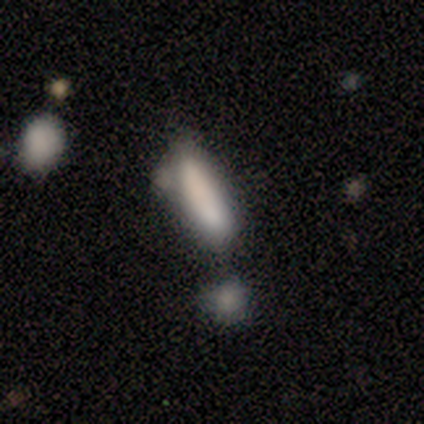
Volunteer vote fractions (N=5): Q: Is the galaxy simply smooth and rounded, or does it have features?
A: smooth — 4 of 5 (80%).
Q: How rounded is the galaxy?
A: in between — 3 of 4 (75%).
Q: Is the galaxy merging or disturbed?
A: none — 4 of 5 (80%).